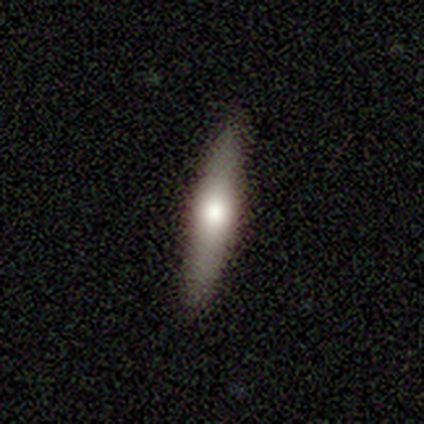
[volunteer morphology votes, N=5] Smooth or featured? 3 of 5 (60%) said smooth. How rounded? 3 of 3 (100%) said cigar-shaped. Merging? 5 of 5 (100%) said none.